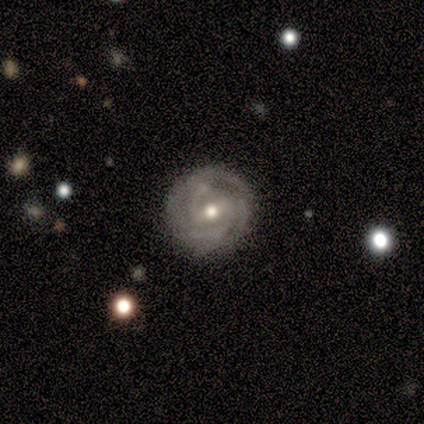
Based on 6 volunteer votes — Smooth or featured: featured or disk — 83% (smooth — 17%)
Edge-on disk: no — 100%
Bar: weak — 80% (strong — 20%)
Spiral arms: yes — 100%
Spiral winding: tight — 60% (medium — 40%)
Spiral arm count: 2 — 80% (3 — 20%)
Bulge size: moderate — 60% (small — 40%)
Merging: none — 67% (minor disturbance — 33%)